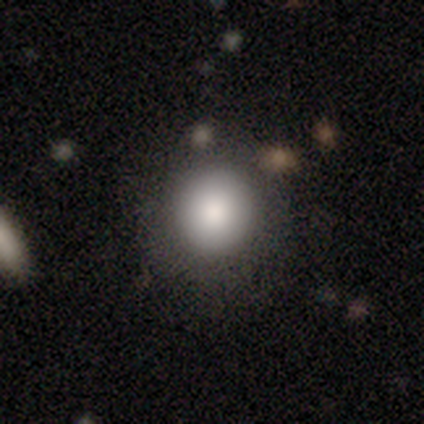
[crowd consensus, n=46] Smooth or featured? smooth (83%)
How rounded? round (100%)
Merging? none (85%)